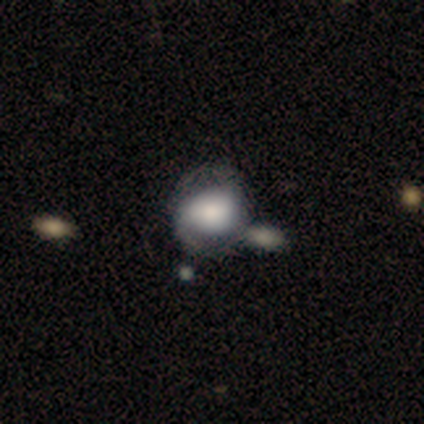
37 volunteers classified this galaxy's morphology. Q: Smooth or featured?
A: smooth (51%); runner-up: featured or disk (43%)
Q: How rounded?
A: round (63%); runner-up: in between (32%)
Q: Merging?
A: none (51%); runner-up: merger (20%)